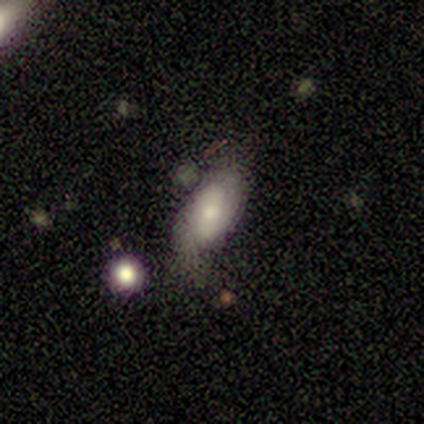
Smooth or featured?
  - smooth: 49% * (tied)
  - featured or disk: 49% * (tied)
  - star or artifact: 3%
How rounded?
  - in between: 94% *
  - round: 6%
  - cigar-shaped: 0%
Merging?
  - none: 53% *
  - minor disturbance: 28%
  - major disturbance: 11%
  - merger: 8%